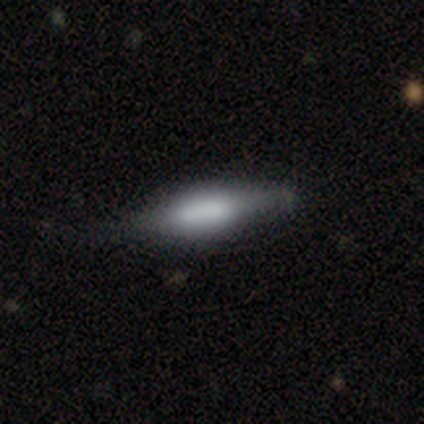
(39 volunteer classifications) smooth 51%, featured or disk 46%, star or artifact 3%. Down the decision tree: how rounded — in between (50%, tied with cigar-shaped); merging — none (45%).